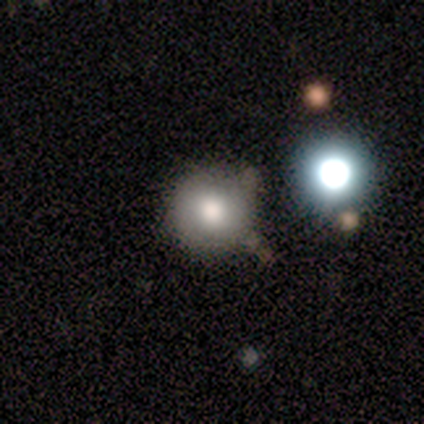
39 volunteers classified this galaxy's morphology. Overall: smooth (67%). How rounded: round (92%). Merging: none (74%).